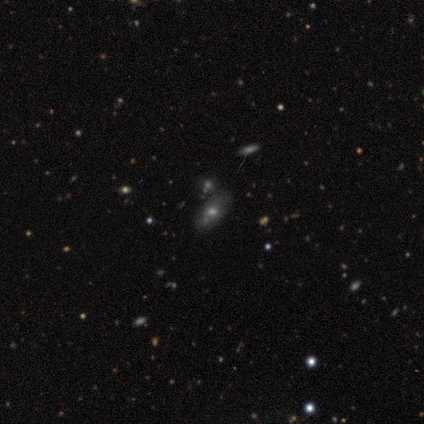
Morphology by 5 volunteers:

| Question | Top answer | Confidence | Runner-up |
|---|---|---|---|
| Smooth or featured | smooth | 40% | tied: featured or disk (40%) |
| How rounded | in between | 100% | — |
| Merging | none | 100% | — |